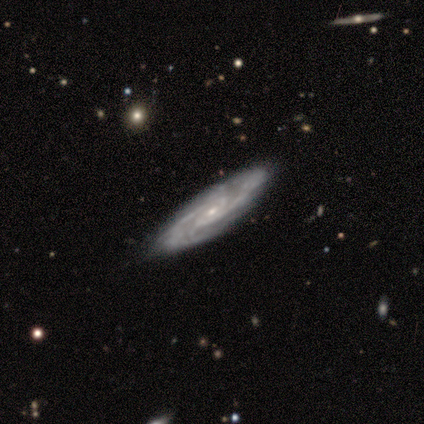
smooth-or-featured: featured or disk: 83% | smooth: 12% | star or artifact: 6%
  disk-edge-on: no: 86% | yes: 14%
    bar: no: 62% | weak: 32% | strong: 5%
    has-spiral-arms: yes: 95% | no: 5%
      spiral-winding: tight: 66% | medium: 31% | loose: 3%
      spiral-arm-count: 2: 49% | can't tell: 20% | 3: 14% | 4: 14% | more than 4: 3% | 1: 0%
    bulge-size: small: 68% | moderate: 30% | none: 3% | dominant: 0% | large: 0%
  merging: none: 86% | minor disturbance: 12% | major disturbance: 2% | merger: 0%